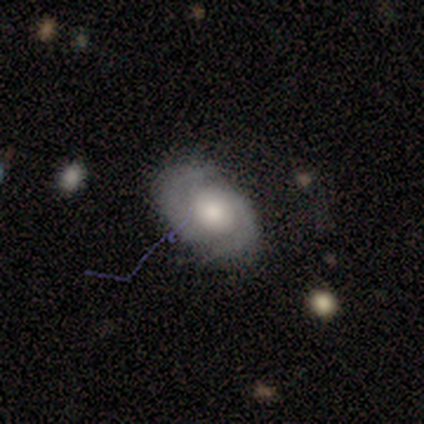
Smooth or featured?
  - smooth: 60% *
  - featured or disk: 40%
  - star or artifact: 0%
How rounded?
  - round: 67% *
  - in between: 33%
  - cigar-shaped: 0%
Merging?
  - none: 100% *
  - minor disturbance: 0%
  - major disturbance: 0%
  - merger: 0%